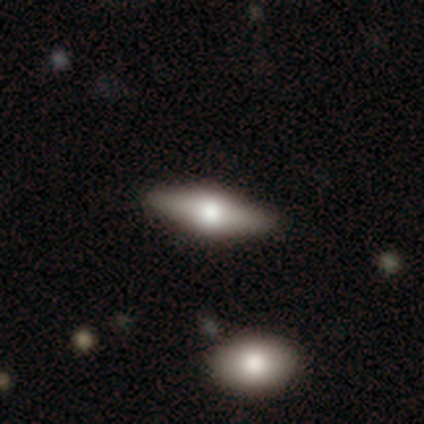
Smooth or featured? 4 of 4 (100%) said featured or disk. Edge-on disk? 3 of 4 (75%) said yes. Edge-on bulge? 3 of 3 (100%) said rounded. Merging? 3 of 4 (75%) said none.